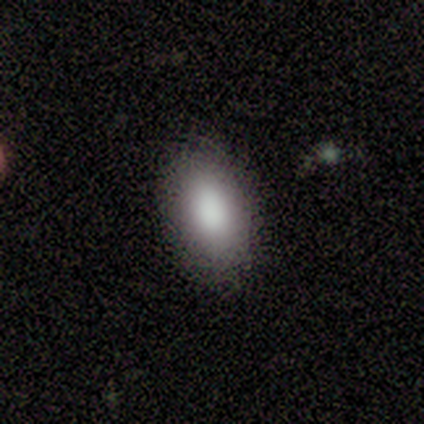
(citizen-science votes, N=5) smooth-or-featured: smooth: 60% | featured or disk: 20% | star or artifact: 20%
  how-rounded: in between: 100% | round: 0% | cigar-shaped: 0%
  merging: none: 100% | minor disturbance: 0% | major disturbance: 0% | merger: 0%